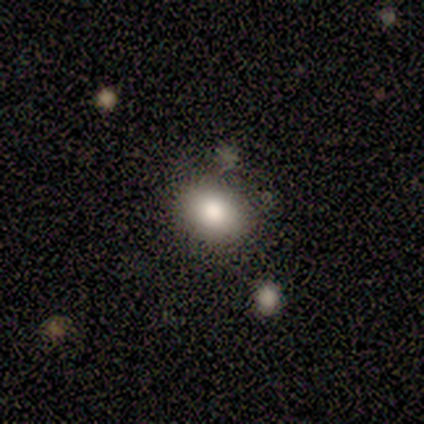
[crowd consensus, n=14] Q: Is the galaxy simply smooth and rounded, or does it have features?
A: smooth — 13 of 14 (93%).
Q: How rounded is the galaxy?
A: in between — 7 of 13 (54%).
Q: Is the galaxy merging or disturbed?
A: none — 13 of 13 (100%).